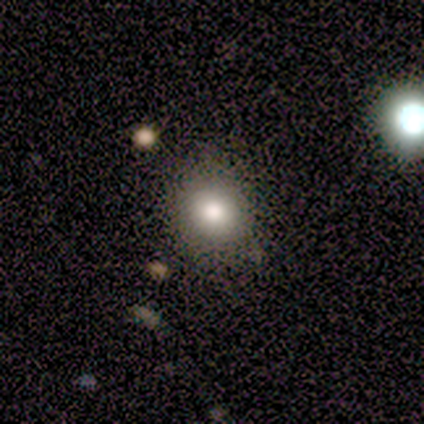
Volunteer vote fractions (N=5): Overall: smooth (100%). How rounded: round (60%; in between 40%). Merging: minor disturbance (60%; none 40%).